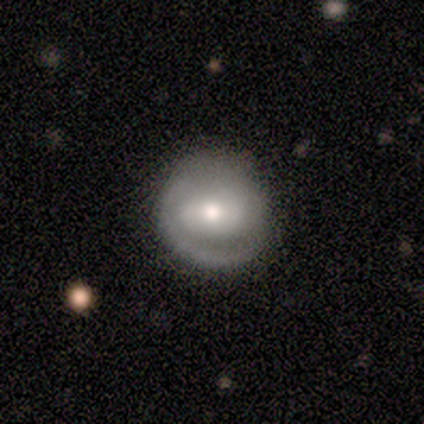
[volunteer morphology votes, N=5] Smooth or featured? featured or disk (60%)
Edge-on disk? no (100%)
Bar? strong (67%)
Spiral arms? yes (67%)
Spiral winding? tight (50%, tied with medium)
Spiral arm count? 2 (100%)
Bulge size? moderate (100%)
Merging? none (100%)